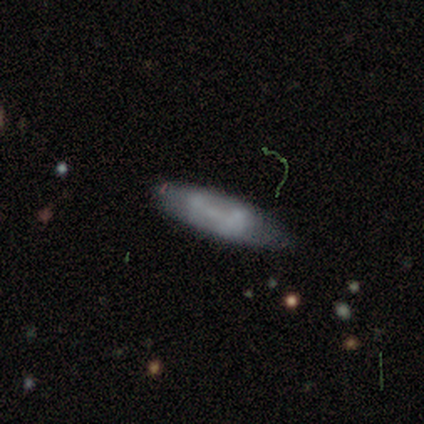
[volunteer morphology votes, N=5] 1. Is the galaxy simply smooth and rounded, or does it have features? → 60% featured or disk, 40% smooth, 0% star or artifact.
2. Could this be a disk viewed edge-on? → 67% no, 33% yes.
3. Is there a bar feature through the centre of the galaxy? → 100% weak, 0% strong, 0% no.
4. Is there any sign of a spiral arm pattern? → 50% yes (tied), 50% no (tied).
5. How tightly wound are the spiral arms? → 100% medium, 0% tight, 0% loose.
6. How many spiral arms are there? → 100% can't tell, 0% 1, 0% 2, 0% 3, 0% 4, 0% more than 4.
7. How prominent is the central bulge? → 50% small (tied), 50% none (tied), 0% dominant, 0% large, 0% moderate.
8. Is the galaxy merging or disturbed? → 60% minor disturbance, 40% none, 0% major disturbance, 0% merger.